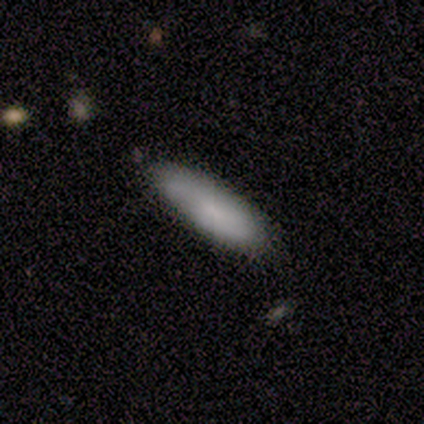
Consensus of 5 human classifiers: Smooth or featured? 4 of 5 (80%) said smooth. How rounded? 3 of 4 (75%) said cigar-shaped. Merging? 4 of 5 (80%) said none.